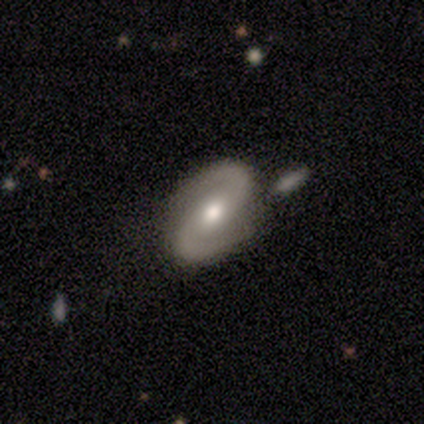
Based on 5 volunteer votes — smooth-or-featured: featured or disk: 100% | smooth: 0% | star or artifact: 0%
  disk-edge-on: no: 100% | yes: 0%
    bar: no: 80% | weak: 20% | strong: 0%
    has-spiral-arms: yes: 100% | no: 0%
      spiral-winding: medium: 80% | loose: 20% | tight: 0%
      spiral-arm-count: 2: 100% | 1: 0% | 3: 0% | 4: 0% | more than 4: 0% | can't tell: 0%
    bulge-size: moderate: 60% | large: 40% | dominant: 0% | small: 0% | none: 0%
  merging: none: 40% | minor disturbance: 20% | major disturbance: 20% | merger: 20%